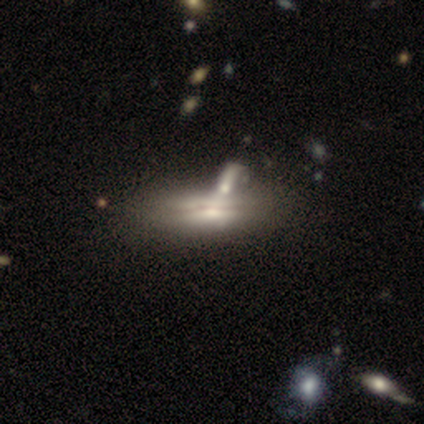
smooth-or-featured: featured or disk: 79% | smooth: 21% | star or artifact: 0%
  disk-edge-on: yes: 65% | no: 35%
    edge-on-bulge: rounded: 65% | none: 20% | boxy: 15%
  merging: merger: 38% | none: 26% | major disturbance: 13% | minor disturbance: 8%